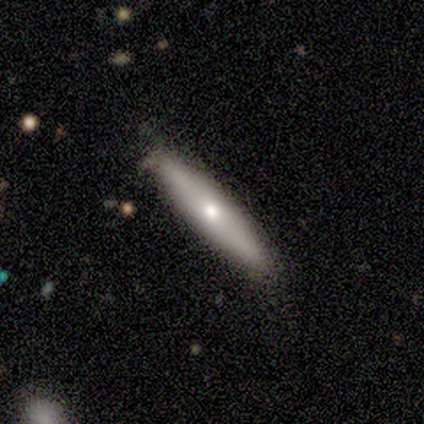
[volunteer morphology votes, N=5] smooth 80%, star or artifact 20%, featured or disk 0%. Down the decision tree: how rounded — cigar-shaped (100%); merging — none (75%).